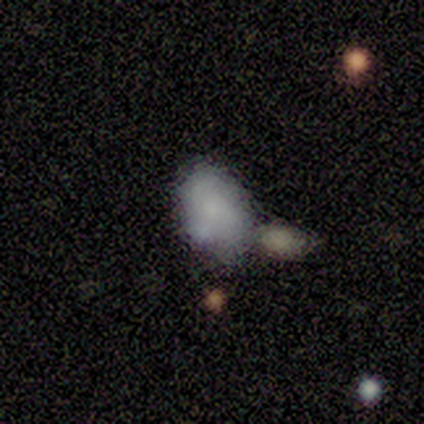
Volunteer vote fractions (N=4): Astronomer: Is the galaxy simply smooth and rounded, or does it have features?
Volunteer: smooth — 100%.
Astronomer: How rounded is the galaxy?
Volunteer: in between — 100%.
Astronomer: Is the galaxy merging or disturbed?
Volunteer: minor disturbance — 75%.